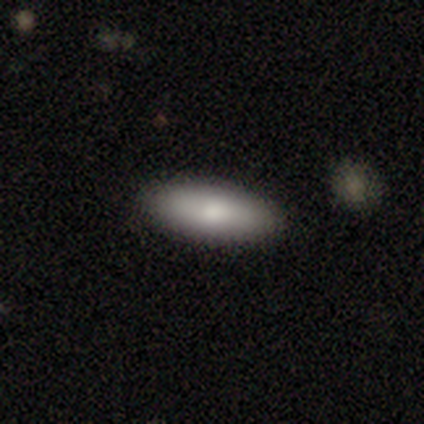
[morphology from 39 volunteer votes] type=smooth (82%); roundness=in between (75%); merging=none (95%).